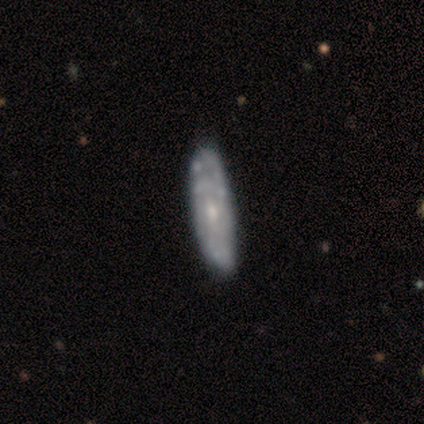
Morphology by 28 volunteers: Overall: featured or disk (61%; smooth 32%). Edge-on disk: no (88%). Bar: no (67%; weak 33%). Spiral arms: yes (60%; no 40%). Spiral arm count: can't tell (89%). Spiral winding: tight (67%). Bulge size: moderate (53%; small 47%). Merging: none (73%).